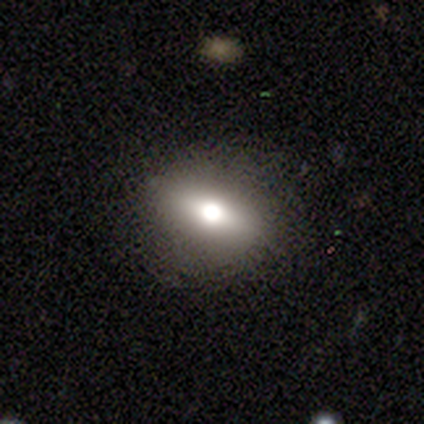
Smooth or featured: featured or disk — 60% (smooth — 20%)
Edge-on disk: yes — 67% (no — 33%)
Edge-on bulge: rounded — 100%
Merging: none — 75% (minor disturbance — 25%)